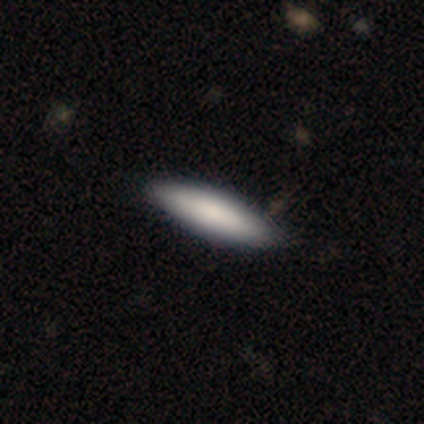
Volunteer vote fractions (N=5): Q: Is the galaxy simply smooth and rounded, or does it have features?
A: smooth — 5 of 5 (100%).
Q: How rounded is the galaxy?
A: cigar-shaped — 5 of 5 (100%).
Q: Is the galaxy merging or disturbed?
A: none — 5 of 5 (100%).